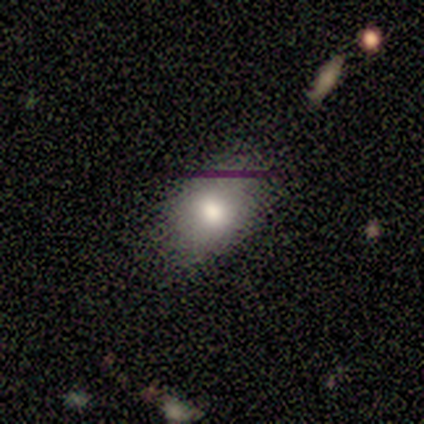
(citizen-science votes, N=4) This appears to be a smooth galaxy with no disk features (75%) that is in between round and cigar-shaped (67%). Merging: none (100%).